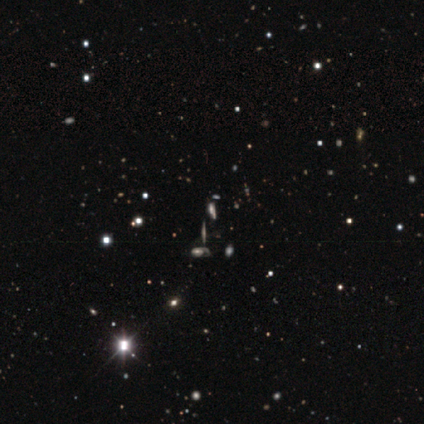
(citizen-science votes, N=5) A star or artifact, not a galaxy (60%).

Vote fractions:
- Smooth or featured? star or artifact: 60% / featured or disk: 40% / smooth: 0%